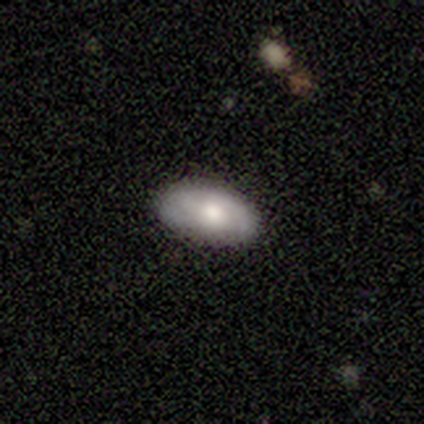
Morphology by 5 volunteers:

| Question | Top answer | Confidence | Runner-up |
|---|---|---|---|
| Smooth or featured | smooth | 60% | featured or disk (40%) |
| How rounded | in between | 100% | — |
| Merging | none | 100% | — |